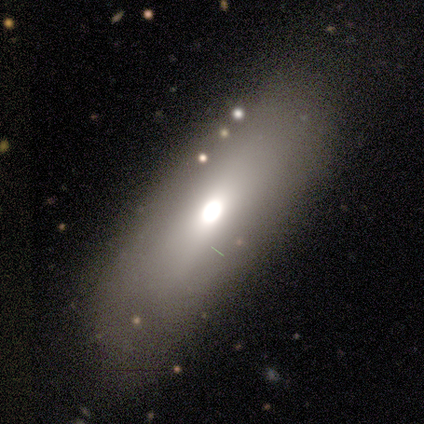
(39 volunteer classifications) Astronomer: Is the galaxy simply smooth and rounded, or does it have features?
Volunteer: smooth — 72%.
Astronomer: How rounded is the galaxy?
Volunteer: in between — 50%, tied with cigar-shaped at 50%.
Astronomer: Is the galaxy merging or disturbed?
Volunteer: none — 73%.